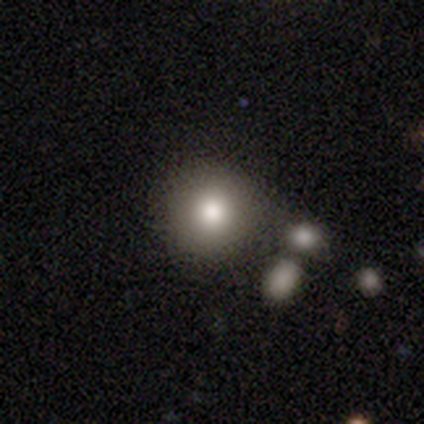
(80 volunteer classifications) smooth_or_featured: smooth (p=0.80) [alt: star or artifact p=0.12]
how_rounded: round (p=0.97) [alt: in between p=0.03]
merging: none (p=0.33) [alt: merger p=0.16]